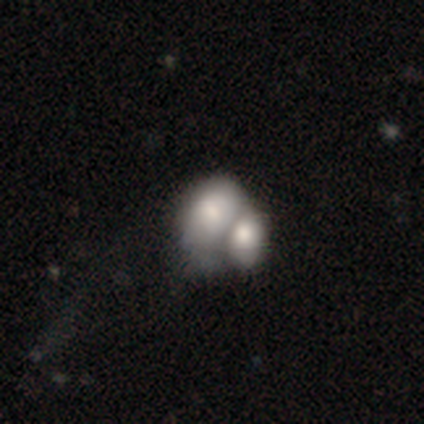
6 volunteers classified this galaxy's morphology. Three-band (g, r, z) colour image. It shows a smooth galaxy with no disk features (100%) that is in between round and cigar-shaped (67%). Merging: merger (83%).